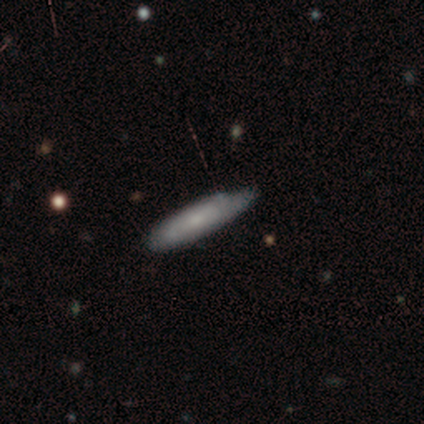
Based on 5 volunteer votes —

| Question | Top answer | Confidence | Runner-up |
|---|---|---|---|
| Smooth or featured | smooth | 100% | — |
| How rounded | cigar-shaped | 80% | round (20%) |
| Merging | none | 80% | minor disturbance (20%) |